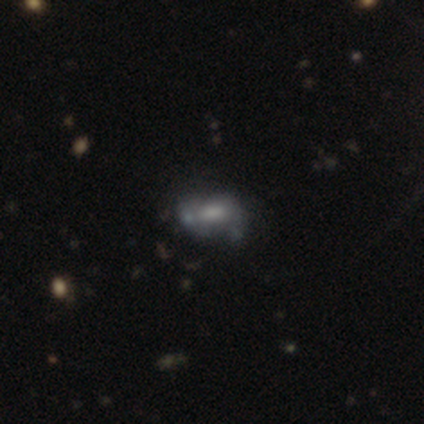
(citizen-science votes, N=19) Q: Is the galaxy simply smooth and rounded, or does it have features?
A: featured or disk — 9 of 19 (47%).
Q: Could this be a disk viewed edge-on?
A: no — 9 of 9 (100%).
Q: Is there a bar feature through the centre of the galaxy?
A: no — 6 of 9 (67%).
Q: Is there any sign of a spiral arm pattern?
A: no — 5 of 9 (56%).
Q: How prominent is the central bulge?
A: small — 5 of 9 (56%).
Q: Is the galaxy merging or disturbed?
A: none — 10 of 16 (62%).